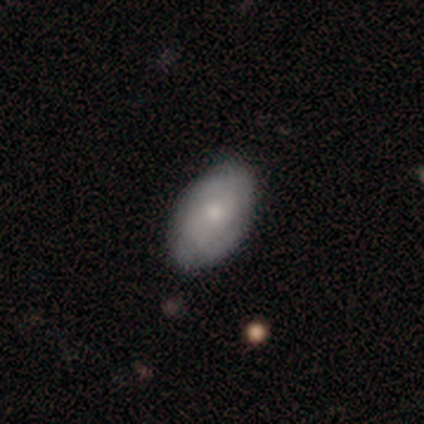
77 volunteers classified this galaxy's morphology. This appears to be a smooth galaxy with no disk features (62%) that is in between round and cigar-shaped (98%). Merging: none (80%).